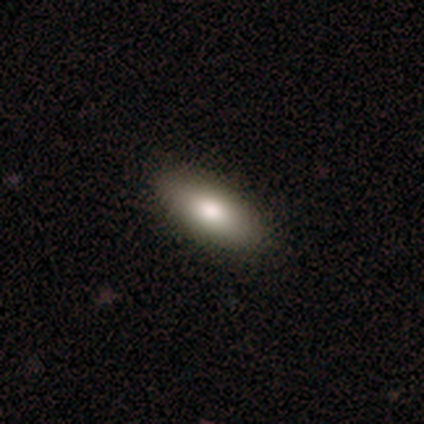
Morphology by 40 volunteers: Smooth or featured? smooth (75%)
How rounded? in between (80%)
Merging? none (97%)